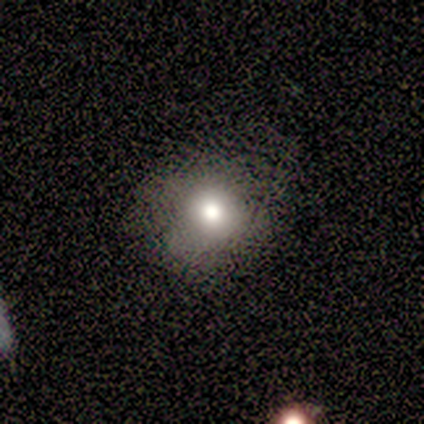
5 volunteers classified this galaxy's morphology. A smooth galaxy with no disk features (80%) that is round (100%). Merging: none (80%).